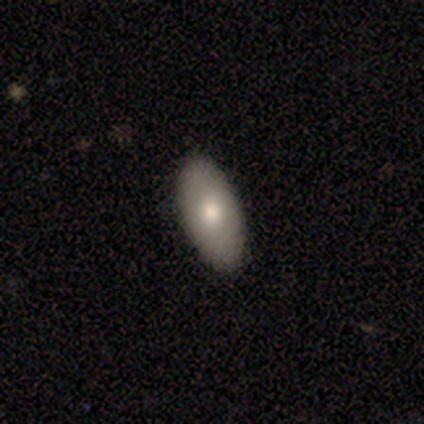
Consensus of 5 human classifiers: Overall: smooth (80%). How rounded: in between (75%). Merging: none (100%).